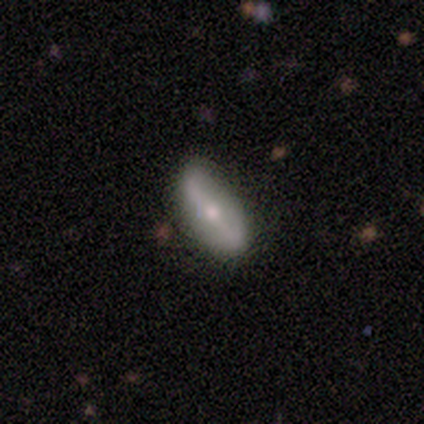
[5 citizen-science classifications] Smooth or featured: featured or disk — 60% (smooth — 40%)
Edge-on disk: no — 100%
Bar: strong — 100%
Spiral arms: no — 100%
Bulge size: moderate — 67% (small — 33%)
Merging: none — 100%